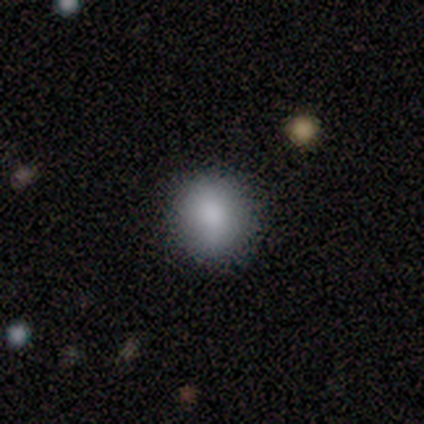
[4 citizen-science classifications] smooth-or-featured: smooth: 100% | featured or disk: 0% | star or artifact: 0%
  how-rounded: round: 75% | in between: 25% | cigar-shaped: 0%
  merging: none: 100% | minor disturbance: 0% | major disturbance: 0% | merger: 0%